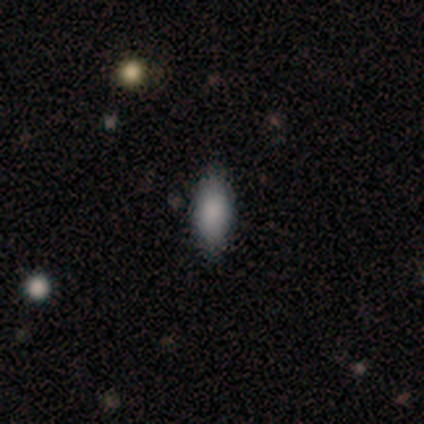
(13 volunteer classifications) Smooth or featured? smooth (77%)
How rounded? in between (80%)
Merging? none (90%)